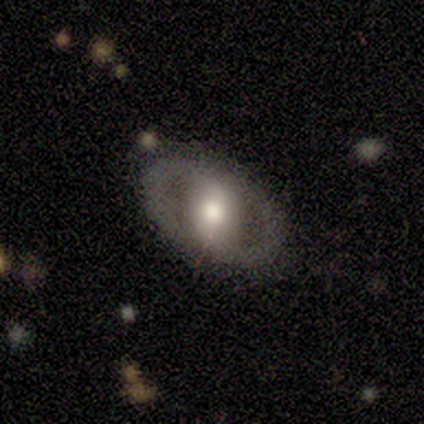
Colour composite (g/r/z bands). It shows a featured or disk galaxy (71%) with a strong bar (60%), 2 (100%) tight (50%) spiral arms (80%) and a large central bulge (60%). Merging: none (71%).